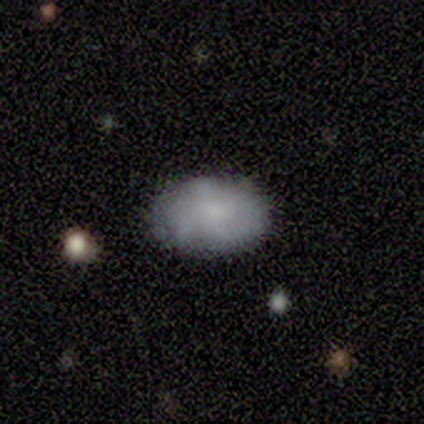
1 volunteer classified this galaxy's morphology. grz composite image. It shows a smooth galaxy with no disk features (100%) that is cigar-shaped (100%). Merging: none (100%).